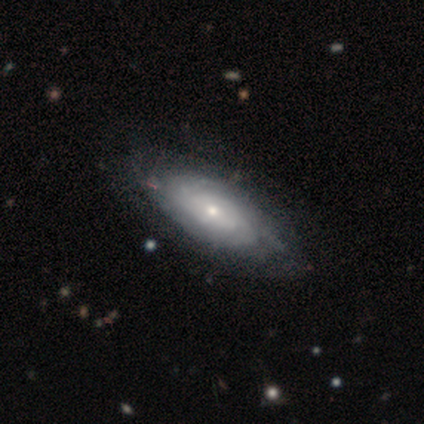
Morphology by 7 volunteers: Q: Smooth or featured?
A: featured or disk (71%); runner-up: smooth (29%)
Q: Edge-on disk?
A: no (80%); runner-up: yes (20%)
Q: Bar?
A: no (75%); runner-up: strong (25%)
Q: Spiral arms?
A: yes (100%)
Q: Spiral winding?
A: tight (50%); tied with: loose (50%)
Q: Spiral arm count?
A: 2 (25%); tied with: 3 (25%); more than 4 (25%); can't tell (25%)
Q: Bulge size?
A: small (75%); runner-up: moderate (25%)
Q: Merging?
A: none (86%); runner-up: minor disturbance (14%)